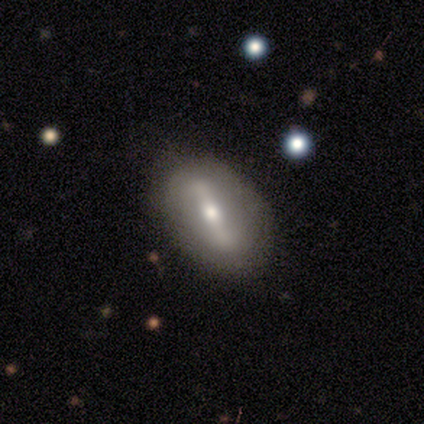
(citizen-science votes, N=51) This is likely a featured or disk galaxy (73%). It is clearly not viewed edge-on (97%). Bar: likely strong (72%). Spiral arm pattern: possibly yes (56%). Spiral arm count: likely 2 (70%). Spiral winding: possibly loose (55%). Central bulge: likely moderate (67%). Merging: clearly none (83%).